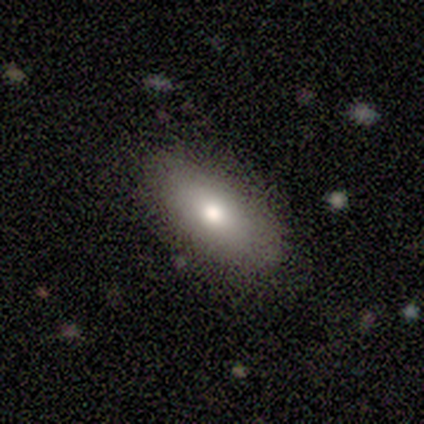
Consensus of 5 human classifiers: A smooth galaxy with no disk features (100%) that is in between round and cigar-shaped (100%).

Vote fractions:
- Smooth or featured? smooth: 100% / featured or disk: 0% / star or artifact: 0%
- How rounded? in between: 100% / round: 0% / cigar-shaped: 0%
- Merging? none: 80% / minor disturbance: 20% / major disturbance: 0% / merger: 0%